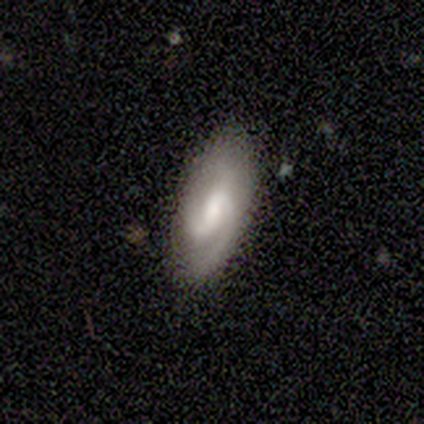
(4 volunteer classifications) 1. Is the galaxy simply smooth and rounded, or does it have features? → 100% featured or disk, 0% smooth, 0% star or artifact.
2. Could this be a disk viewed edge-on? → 100% no, 0% yes.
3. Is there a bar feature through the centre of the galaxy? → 75% no, 25% weak, 0% strong.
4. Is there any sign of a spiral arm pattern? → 100% yes, 0% no.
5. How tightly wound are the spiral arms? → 50% tight, 25% medium, 25% loose.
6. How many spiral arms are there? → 75% 2, 25% 3, 0% 1, 0% 4, 0% more than 4, 0% can't tell.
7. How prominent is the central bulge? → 50% small, 25% moderate, 25% none, 0% dominant, 0% large.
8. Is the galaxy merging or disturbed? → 100% none, 0% minor disturbance, 0% major disturbance, 0% merger.